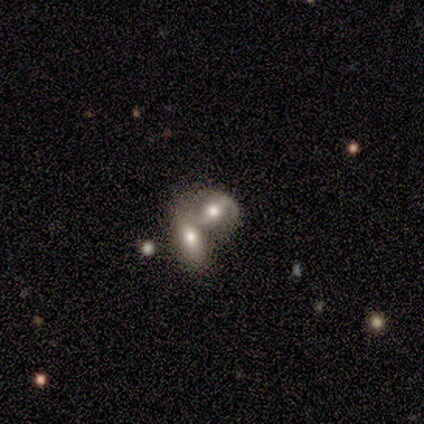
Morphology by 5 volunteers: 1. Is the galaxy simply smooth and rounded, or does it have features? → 80% featured or disk, 20% smooth, 0% star or artifact.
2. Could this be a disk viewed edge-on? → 100% no, 0% yes.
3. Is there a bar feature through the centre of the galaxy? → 50% weak (tied), 50% no (tied), 0% strong.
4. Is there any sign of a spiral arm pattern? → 50% yes (tied), 50% no (tied).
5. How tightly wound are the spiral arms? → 50% tight (tied), 50% medium (tied), 0% loose.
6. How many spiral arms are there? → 100% 2, 0% 1, 0% 3, 0% 4, 0% more than 4, 0% can't tell.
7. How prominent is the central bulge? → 50% moderate, 25% large, 25% small, 0% dominant, 0% none.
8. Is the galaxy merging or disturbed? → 100% merger, 0% none, 0% minor disturbance, 0% major disturbance.